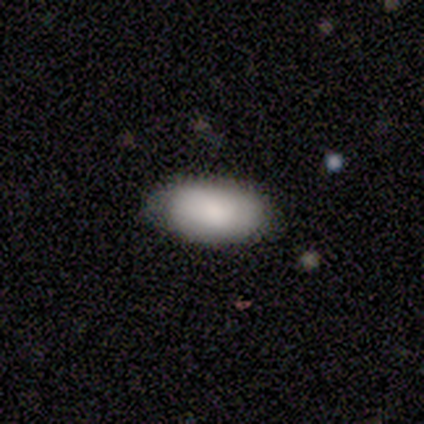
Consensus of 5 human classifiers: Consensus on every question: smooth or featured — smooth (100%); how rounded — in between (100%); merging — none (100%).